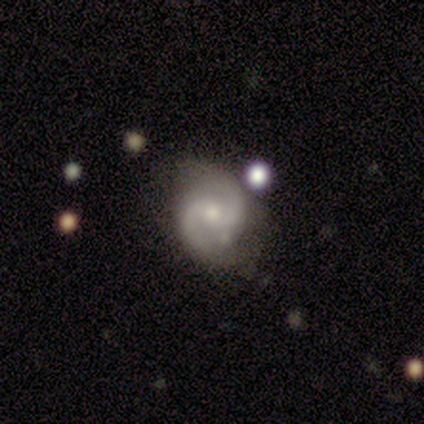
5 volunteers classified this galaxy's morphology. Smooth or featured? 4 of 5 (80%) said featured or disk. Edge-on disk? 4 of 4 (100%) said no. Bar? 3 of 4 (75%) said no. Spiral arms? 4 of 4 (100%) said yes. Spiral winding? 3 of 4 (75%) said medium. Spiral arm count? 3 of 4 (75%) said 2. Bulge size? 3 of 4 (75%) said moderate. Merging? 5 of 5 (100%) said none.